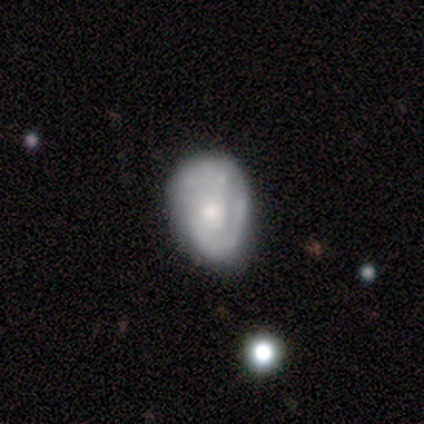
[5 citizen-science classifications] A smooth galaxy with no disk features (40%, tied with featured or disk) that is in between round and cigar-shaped (100%). Merging: minor disturbance (75%).